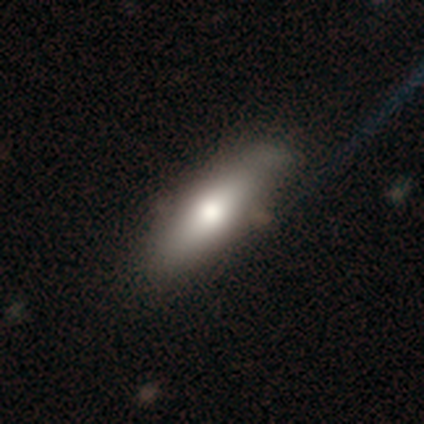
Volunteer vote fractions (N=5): Smooth or featured?
  - featured or disk: 60% *
  - smooth: 40%
  - star or artifact: 0%
Edge-on disk?
  - yes: 100% *
  - no: 0%
Edge-on bulge?
  - rounded: 67% *
  - none: 33%
  - boxy: 0%
Merging?
  - none: 60% *
  - minor disturbance: 40%
  - major disturbance: 0%
  - merger: 0%